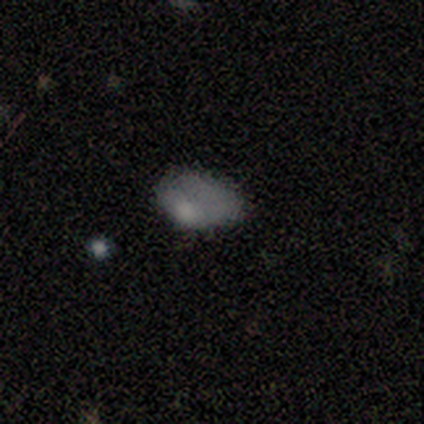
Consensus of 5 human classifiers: This is likely a smooth galaxy (60%). How rounded: likely in between (67%). Merging: likely minor disturbance (67%).